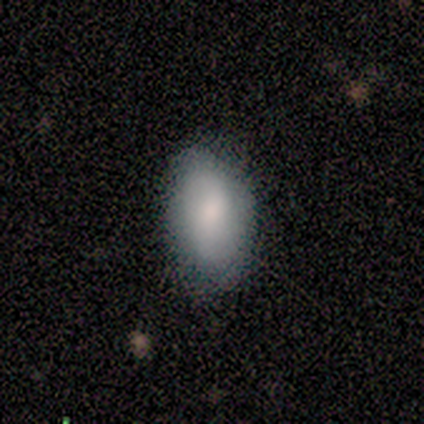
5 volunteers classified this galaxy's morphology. Smooth or featured? smooth (80%)
How rounded? round (50%, tied with in between)
Merging? none (100%)